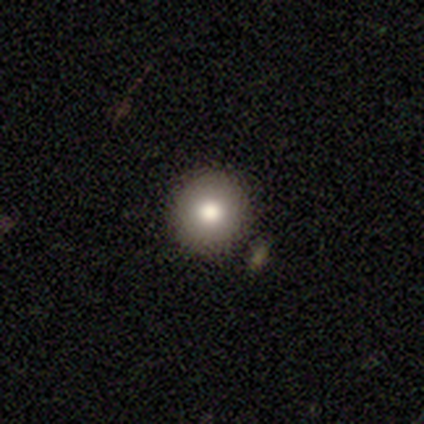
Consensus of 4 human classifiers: This is likely a smooth galaxy (75%). How rounded: clearly round (100%). Merging: clearly none (100%).